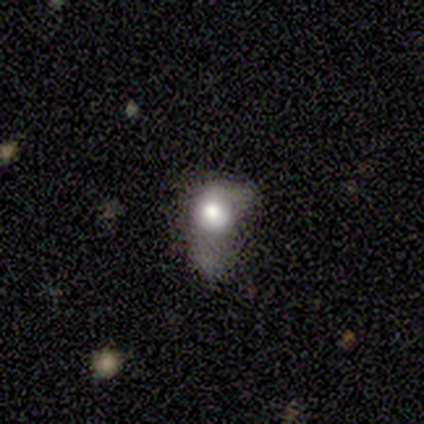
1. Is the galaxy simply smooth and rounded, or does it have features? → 40% smooth (tied), 40% featured or disk (tied), 20% star or artifact.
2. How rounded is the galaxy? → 100% in between, 0% round, 0% cigar-shaped.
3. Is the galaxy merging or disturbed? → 50% minor disturbance (tied), 50% major disturbance (tied), 0% none, 0% merger.